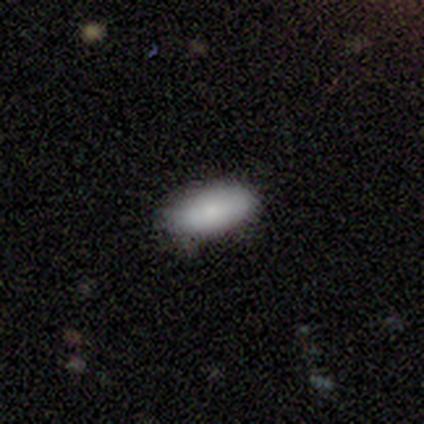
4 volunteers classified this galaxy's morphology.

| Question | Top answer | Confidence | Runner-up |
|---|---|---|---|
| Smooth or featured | smooth | 100% | — |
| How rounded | in between | 100% | — |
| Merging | none | 100% | — |